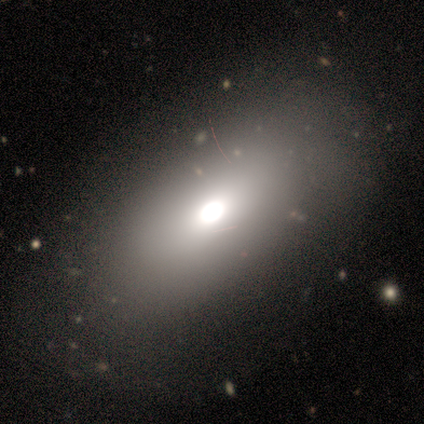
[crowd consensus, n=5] A smooth galaxy with no disk features (80%) that is in between round and cigar-shaped (100%).

Vote fractions:
- Smooth or featured? smooth: 80% / star or artifact: 20% / featured or disk: 0%
- How rounded? in between: 100% / round: 0% / cigar-shaped: 0%
- Merging? none: 50% (tied) / minor disturbance: 50% (tied) / major disturbance: 0% / merger: 0%